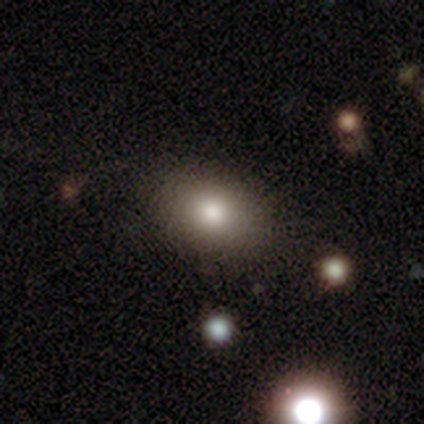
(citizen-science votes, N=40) Smooth or featured? smooth (92%)
How rounded? in between (78%)
Merging? none (82%)